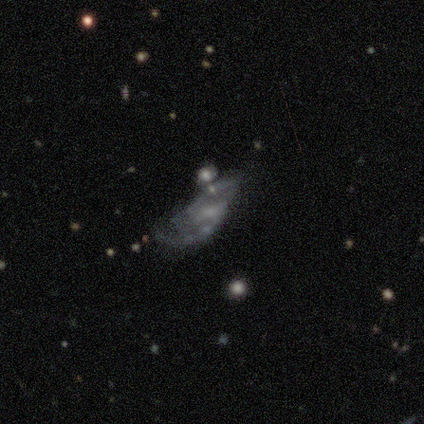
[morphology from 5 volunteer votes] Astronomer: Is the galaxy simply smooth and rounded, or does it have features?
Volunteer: featured or disk — 80%.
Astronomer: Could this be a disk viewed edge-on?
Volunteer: no — 100%.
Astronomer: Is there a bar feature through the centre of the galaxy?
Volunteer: weak — 50%, tied with no at 50%.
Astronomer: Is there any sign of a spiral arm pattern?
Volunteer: yes — 75%.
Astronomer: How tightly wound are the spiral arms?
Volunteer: medium — 67%.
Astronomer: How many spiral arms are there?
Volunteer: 2 — 67%.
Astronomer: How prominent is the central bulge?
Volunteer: small — 75%.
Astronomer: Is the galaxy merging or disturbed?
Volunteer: none — 50%.